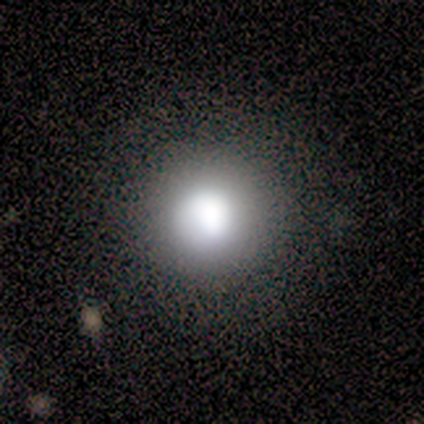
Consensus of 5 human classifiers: This is clearly a smooth galaxy (100%). How rounded: clearly round (100%). Merging: marginally none (40%, tied with major disturbance).